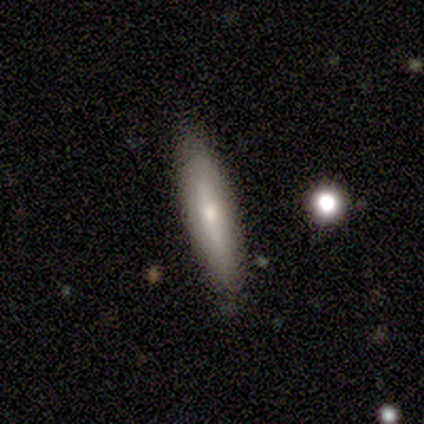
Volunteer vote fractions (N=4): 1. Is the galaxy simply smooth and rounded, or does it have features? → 50% smooth (tied), 50% featured or disk (tied), 0% star or artifact.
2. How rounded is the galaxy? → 50% in between (tied), 50% cigar-shaped (tied), 0% round.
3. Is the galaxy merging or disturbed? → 100% none, 0% minor disturbance, 0% major disturbance, 0% merger.